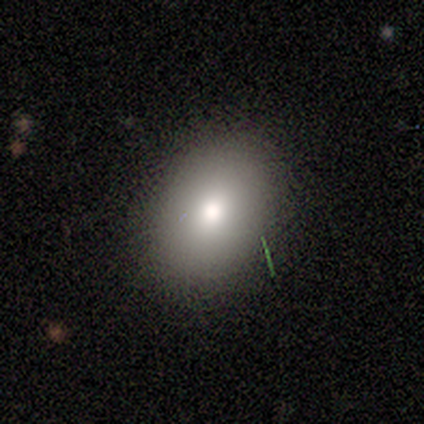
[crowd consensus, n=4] This appears to be a smooth galaxy with no disk features (75%) that is in between round and cigar-shaped (100%). Merging: none (75%).